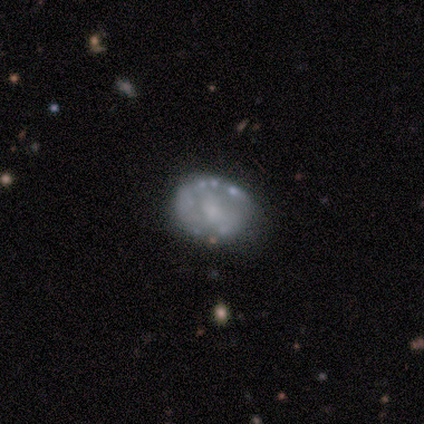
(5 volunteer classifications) smooth-or-featured: featured or disk: 100% | smooth: 0% | star or artifact: 0%
  disk-edge-on: no: 100% | yes: 0%
    bar: no: 80% | weak: 20% | strong: 0%
    has-spiral-arms: no: 60% | yes: 40%
    bulge-size: small: 60% | moderate: 40% | dominant: 0% | large: 0% | none: 0%
  merging: none: 60% | minor disturbance: 20% | merger: 20% | major disturbance: 0%